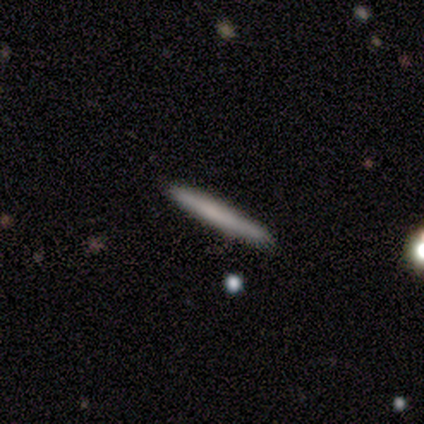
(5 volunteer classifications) smooth-or-featured: smooth: 60% | featured or disk: 40% | star or artifact: 0%
  how-rounded: cigar-shaped: 100% | round: 0% | in between: 0%
  merging: none: 100% | minor disturbance: 0% | major disturbance: 0% | merger: 0%